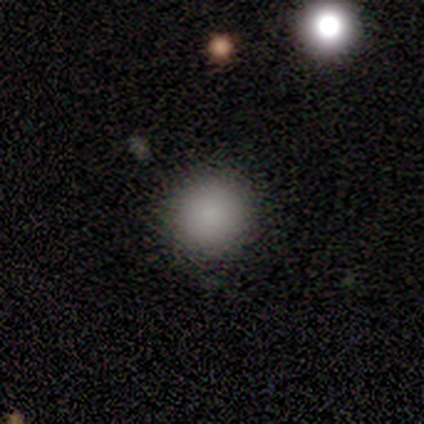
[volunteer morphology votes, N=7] type=smooth (71%); roundness=round (80%); merging=none (100%).